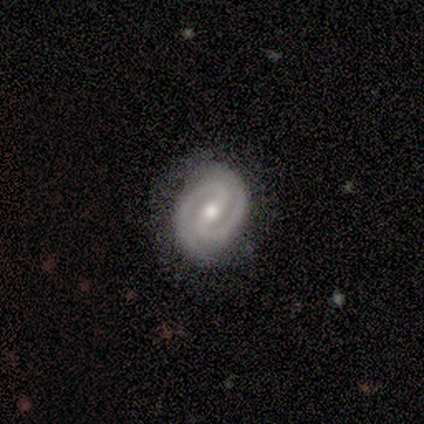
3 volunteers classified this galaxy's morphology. type=featured or disk (100%); edge-on=no (100%); bar=strong (100%); spiral arms=yes (100%); winding=tight (100%); arm count=2 (100%); bulge=large (33%, tied with moderate and small); merging=none (100%).